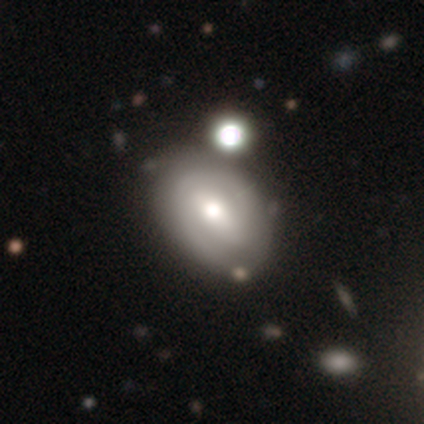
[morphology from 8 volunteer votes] A featured or disk galaxy (62%) with a weak bar (60%), 1 (33%, tied with 2 and can't tell) medium (67%) spiral arms (60%) and a moderate central bulge (40%, tied with small).

Vote fractions:
- Smooth or featured? featured or disk: 62% / smooth: 38% / star or artifact: 0%
- Edge-on disk? no: 100% / yes: 0%
- Bar? weak: 60% / strong: 20% / no: 20%
- Spiral arms? yes: 60% / no: 40%
- Spiral winding? medium: 67% / tight: 33% / loose: 0%
- Spiral arm count? 1: 33% (tied) / 2: 33% (tied) / can't tell: 33% (tied) / 3: 0% / 4: 0% / more than 4: 0%
- Bulge size? moderate: 40% (tied) / small: 40% (tied) / large: 20% / dominant: 0% / none: 0%
- Merging? none: 38% (tied) / minor disturbance: 38% (tied) / major disturbance: 12% / merger: 12%